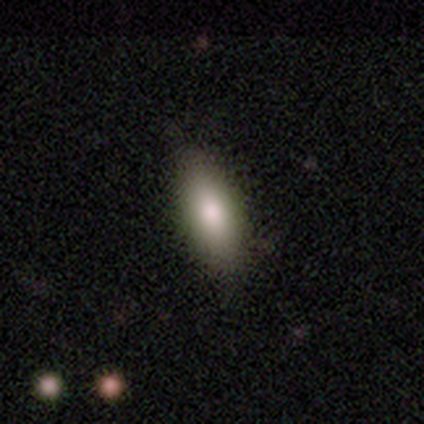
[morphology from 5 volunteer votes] A smooth galaxy with no disk features (100%) that is in between round and cigar-shaped (80%).

Vote fractions:
- Smooth or featured? smooth: 100% / featured or disk: 0% / star or artifact: 0%
- How rounded? in between: 80% / cigar-shaped: 20% / round: 0%
- Merging? none: 80% / minor disturbance: 20% / major disturbance: 0% / merger: 0%